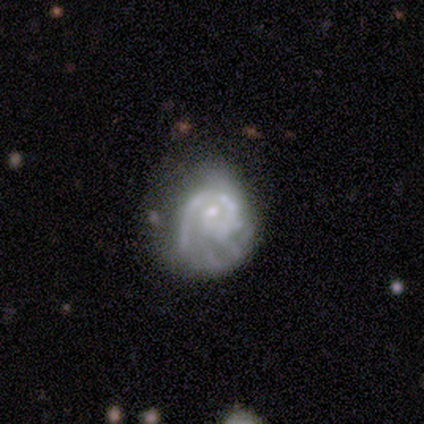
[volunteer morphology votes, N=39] Smooth or featured? 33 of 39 (85%) said featured or disk. Edge-on disk? 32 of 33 (97%) said no. Bar? 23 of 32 (72%) said no. Spiral arms? 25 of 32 (78%) said yes. Spiral winding? 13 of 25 (52%) said tight. Spiral arm count? 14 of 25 (56%) said 1. Bulge size? 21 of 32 (66%) said small. Merging? 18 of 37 (49%) said none.